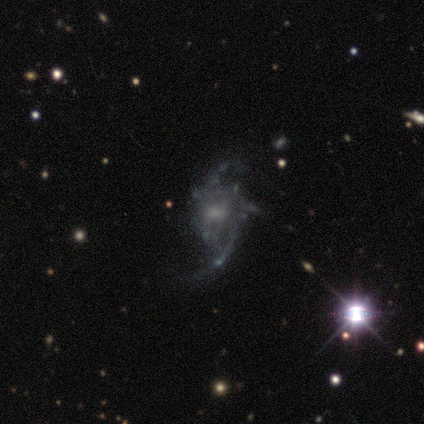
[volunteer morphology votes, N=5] smooth-or-featured: featured or disk: 100% | smooth: 0% | star or artifact: 0%
  disk-edge-on: no: 100% | yes: 0%
    bar: no: 80% | strong: 20% | weak: 0%
    has-spiral-arms: yes: 100% | no: 0%
      spiral-winding: loose: 60% | tight: 20% | medium: 20%
      spiral-arm-count: 2: 60% | can't tell: 40% | 1: 0% | 3: 0% | 4: 0% | more than 4: 0%
    bulge-size: small: 60% | moderate: 40% | dominant: 0% | large: 0% | none: 0%
  merging: major disturbance: 80% | minor disturbance: 20% | none: 0% | merger: 0%